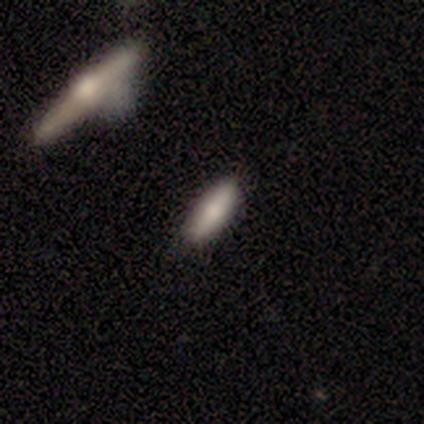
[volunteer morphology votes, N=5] A smooth galaxy with no disk features (60%) that is in between round and cigar-shaped (67%). Merging: none (60%).